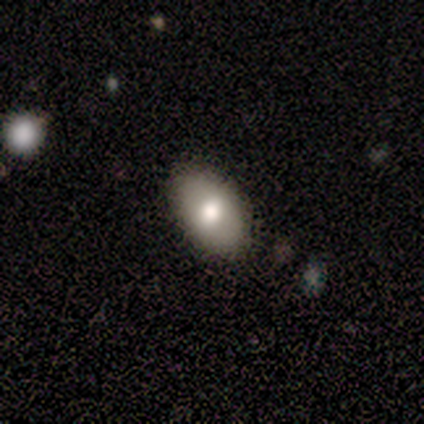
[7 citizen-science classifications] smooth_or_featured: smooth (p=0.86) [alt: star or artifact p=0.14]
how_rounded: in between (p=1.00)
merging: none (p=0.83) [alt: minor disturbance p=0.17]